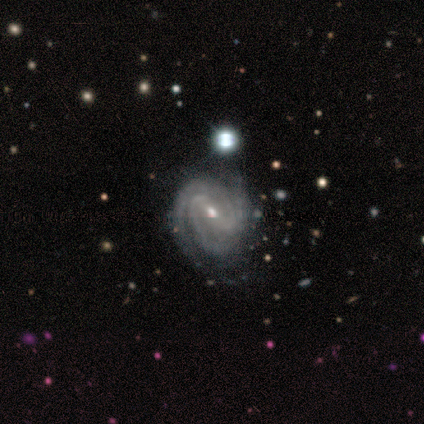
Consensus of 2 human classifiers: Overall: featured or disk (100%). Edge-on disk: no (100%). Bar: weak (100%). Spiral arms: yes (100%). Spiral arm count: 2 (100%). Spiral winding: medium (100%). Bulge size: moderate (50%, tied with small). Merging: none (50%, tied with merger).